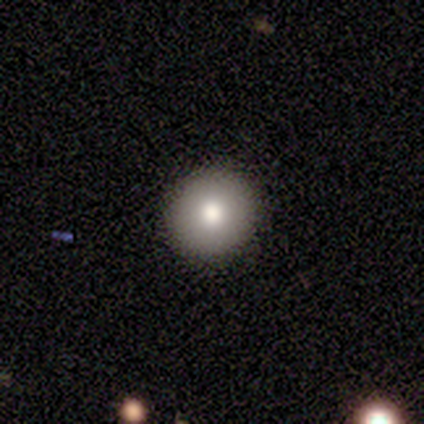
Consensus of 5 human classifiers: Overall: smooth (80%). How rounded: round (100%). Merging: none (100%).